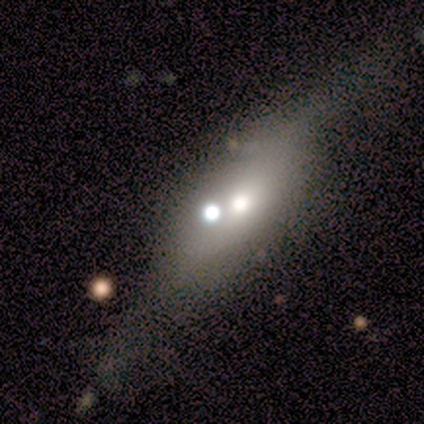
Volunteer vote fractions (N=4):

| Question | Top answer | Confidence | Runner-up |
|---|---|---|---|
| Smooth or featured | smooth | 50% | tied: star or artifact (50%) |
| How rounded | in between | 50% | tied: cigar-shaped (50%) |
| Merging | major disturbance | 50% | tied: merger (50%) |